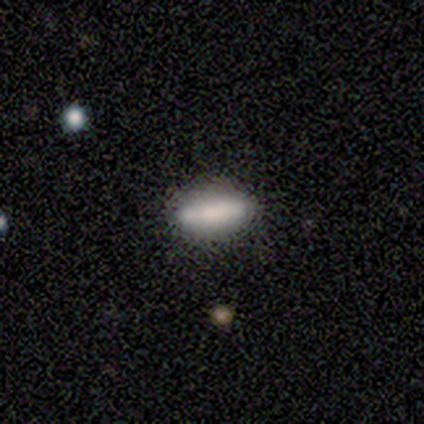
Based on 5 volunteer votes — A smooth galaxy with no disk features (100%) that is in between round and cigar-shaped (100%). Merging: none (80%).